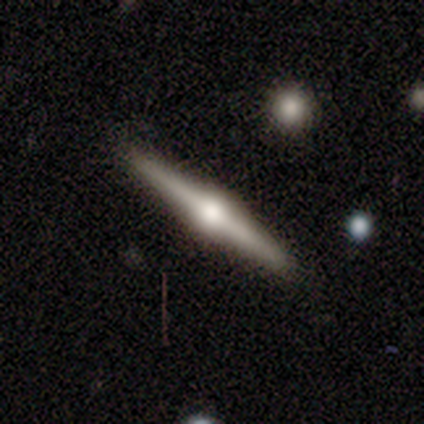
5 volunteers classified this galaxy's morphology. A featured or disk galaxy (100%) viewed edge-on (100%) with a rounded central bulge (80%).

Vote fractions:
- Smooth or featured? featured or disk: 100% / smooth: 0% / star or artifact: 0%
- Edge-on disk? yes: 100% / no: 0%
- Edge-on bulge? rounded: 80% / boxy: 20% / none: 0%
- Merging? none: 100% / minor disturbance: 0% / major disturbance: 0% / merger: 0%